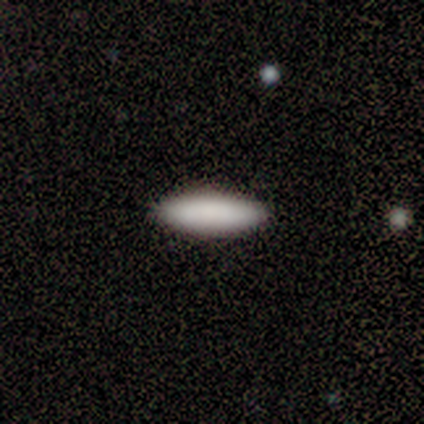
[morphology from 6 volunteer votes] A smooth galaxy with no disk features (83%) that is cigar-shaped (60%).

Vote fractions:
- Smooth or featured? smooth: 83% / featured or disk: 17% / star or artifact: 0%
- How rounded? cigar-shaped: 60% / in between: 40% / round: 0%
- Merging? none: 100% / minor disturbance: 0% / major disturbance: 0% / merger: 0%